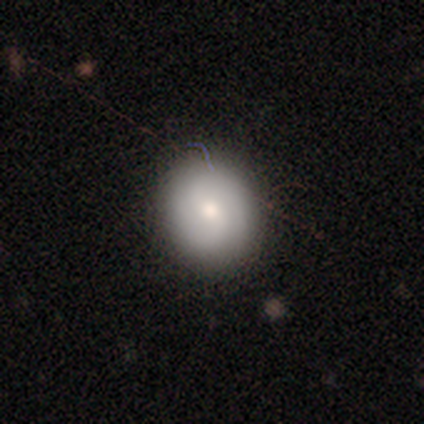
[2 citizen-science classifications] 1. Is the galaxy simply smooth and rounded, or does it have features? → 50% smooth (tied), 50% star or artifact (tied), 0% featured or disk.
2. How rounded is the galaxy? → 100% in between, 0% round, 0% cigar-shaped.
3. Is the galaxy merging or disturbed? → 100% none, 0% minor disturbance, 0% major disturbance, 0% merger.